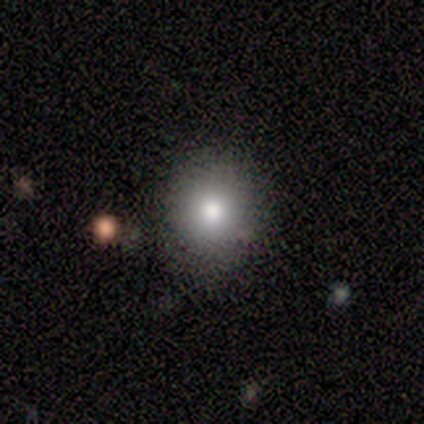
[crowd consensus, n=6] Morphology: type=featured or disk (50%); edge-on=no (67%); bar=no (100%); spiral arms=no (100%); bulge=moderate (50%, tied with small); merging=none (100%).